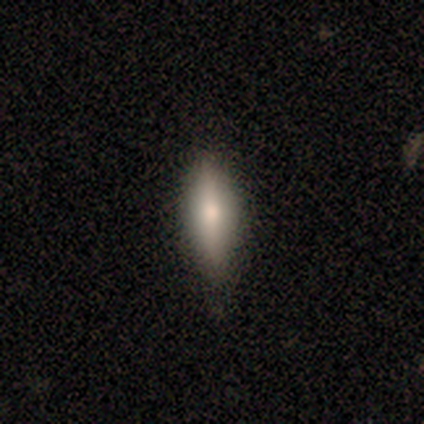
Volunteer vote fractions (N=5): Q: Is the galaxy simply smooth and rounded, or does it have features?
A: smooth — 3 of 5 (60%).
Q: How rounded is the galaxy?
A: in between — 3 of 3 (100%).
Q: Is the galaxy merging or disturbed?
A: none — 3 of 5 (60%).